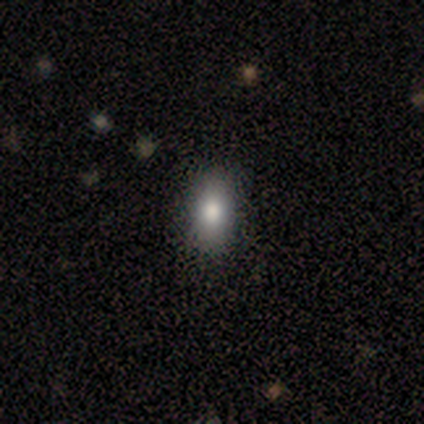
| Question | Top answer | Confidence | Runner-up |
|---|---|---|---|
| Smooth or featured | smooth | 60% | featured or disk (20%) |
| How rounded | in between | 67% | round (33%) |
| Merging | none | 100% | — |